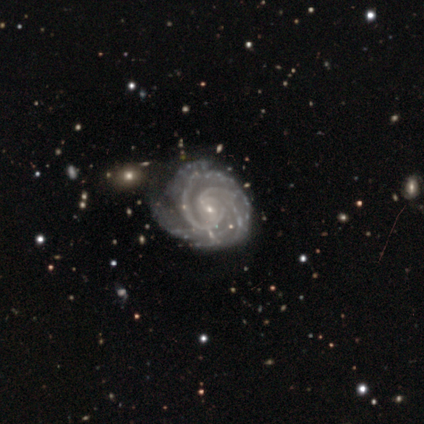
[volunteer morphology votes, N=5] Q: Smooth or featured?
A: featured or disk (100%)
Q: Edge-on disk?
A: no (100%)
Q: Bar?
A: weak (60%); runner-up: no (40%)
Q: Spiral arms?
A: yes (100%)
Q: Spiral winding?
A: medium (80%); runner-up: tight (20%)
Q: Spiral arm count?
A: 2 (40%); tied with: more than 4 (40%)
Q: Bulge size?
A: small (100%)
Q: Merging?
A: none (80%); runner-up: merger (20%)